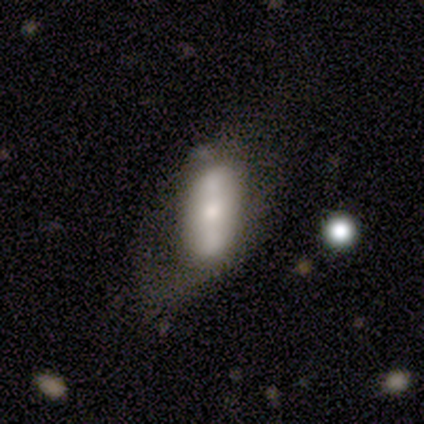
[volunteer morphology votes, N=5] smooth-or-featured: featured or disk: 100% | smooth: 0% | star or artifact: 0%
  disk-edge-on: no: 100% | yes: 0%
    bar: strong: 60% | weak: 20% | no: 20%
    has-spiral-arms: no: 100% | yes: 0%
    bulge-size: moderate: 40% | dominant: 20% | small: 20% | none: 20% | large: 0%
  merging: none: 40% (tied) | minor disturbance: 40% (tied) | major disturbance: 20% | merger: 0%